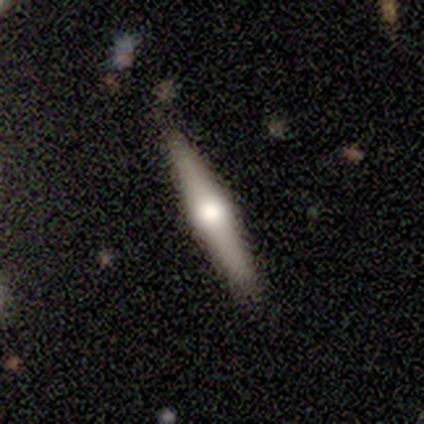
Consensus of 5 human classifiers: Q: Smooth or featured?
A: featured or disk (60%); runner-up: smooth (20%)
Q: Edge-on disk?
A: yes (100%)
Q: Edge-on bulge?
A: rounded (100%)
Q: Merging?
A: none (75%); runner-up: minor disturbance (25%)